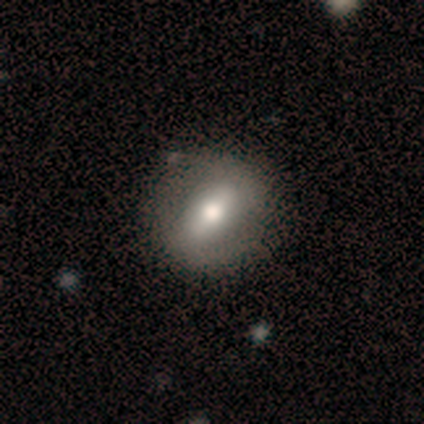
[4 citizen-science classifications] Overall: smooth (75%). How rounded: round (67%; in between 33%). Merging: none (100%).